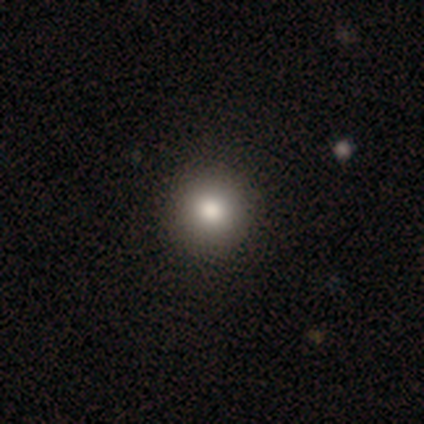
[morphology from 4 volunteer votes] This is clearly a smooth galaxy (100%). How rounded: clearly round (100%). Merging: clearly none (100%).